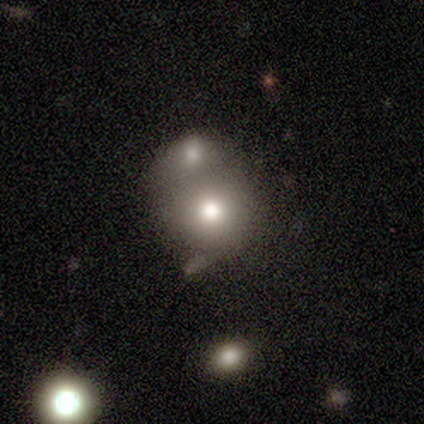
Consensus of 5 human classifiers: This appears to be a smooth galaxy with no disk features (80%) that is round (100%). Merging: minor disturbance (60%).